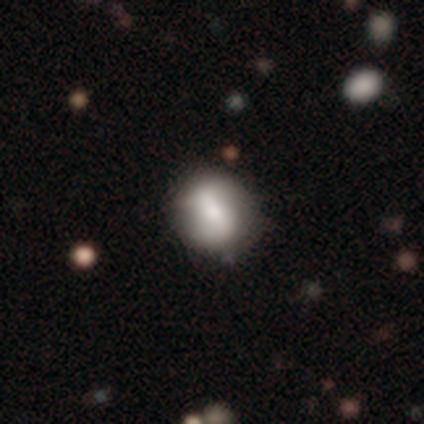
Smooth or featured?
  - featured or disk: 80% *
  - smooth: 20%
  - star or artifact: 0%
Edge-on disk?
  - no: 100% *
  - yes: 0%
Bar?
  - no: 75% *
  - strong: 25%
  - weak: 0%
Spiral arms?
  - yes: 75% *
  - no: 25%
Spiral winding?
  - tight: 33% * (tied)
  - medium: 33% * (tied)
  - loose: 33% * (tied)
Spiral arm count?
  - 2: 67% *
  - can't tell: 33%
  - 1: 0%
  - 3: 0%
  - 4: 0%
  - more than 4: 0%
Bulge size?
  - dominant: 25% * (tied)
  - large: 25% * (tied)
  - moderate: 25% * (tied)
  - small: 25% * (tied)
  - none: 0%
Merging?
  - none: 60% *
  - minor disturbance: 40%
  - major disturbance: 0%
  - merger: 0%